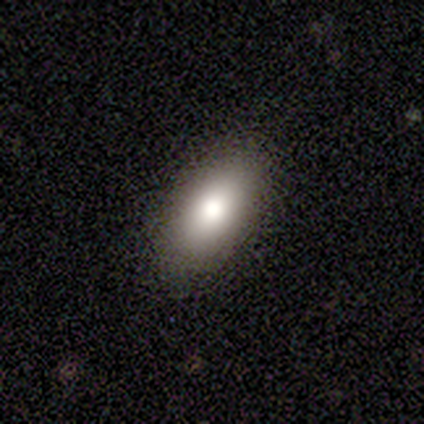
Morphology: type=smooth (80%); roundness=in between (100%); merging=none (100%).